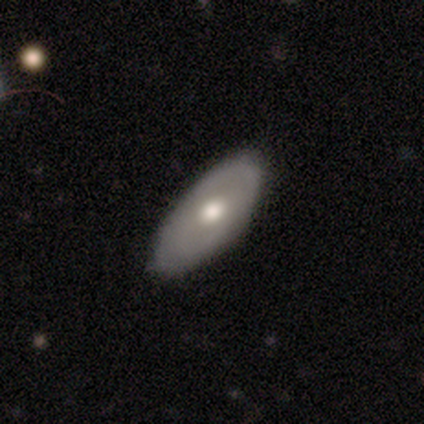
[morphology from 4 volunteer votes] Smooth or featured: smooth — 50% (tied with featured or disk — 50%)
How rounded: in between — 100%
Merging: minor disturbance — 75% (none — 25%)